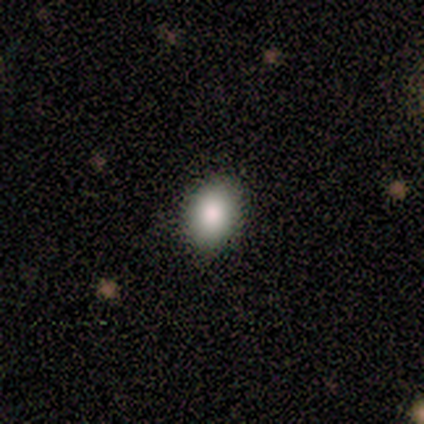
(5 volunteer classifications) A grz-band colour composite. It shows a smooth galaxy with no disk features (80%) that is in between round and cigar-shaped (75%). Merging: none (100%).